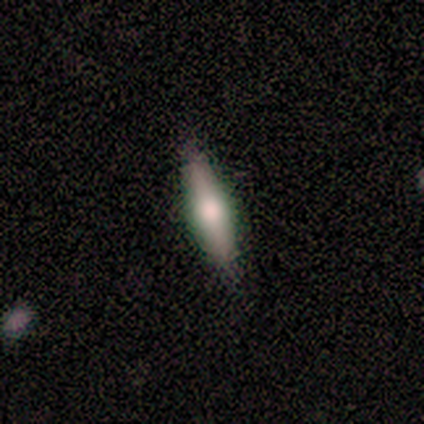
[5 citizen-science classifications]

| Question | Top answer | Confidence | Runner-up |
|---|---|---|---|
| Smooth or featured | smooth | 60% | featured or disk (40%) |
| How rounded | cigar-shaped | 100% | — |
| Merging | none | 60% | minor disturbance (40%) |